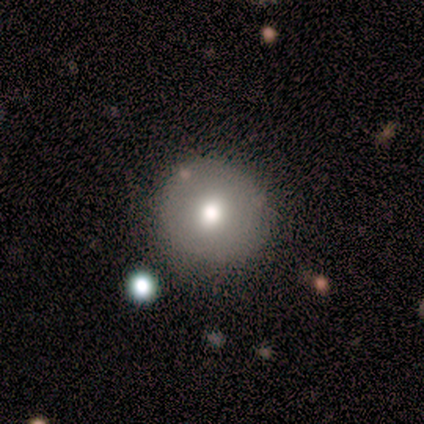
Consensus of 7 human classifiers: Smooth or featured?
  - smooth: 57% *
  - featured or disk: 29%
  - star or artifact: 14%
How rounded?
  - round: 100% *
  - in between: 0%
  - cigar-shaped: 0%
Merging?
  - none: 83% *
  - minor disturbance: 17%
  - major disturbance: 0%
  - merger: 0%